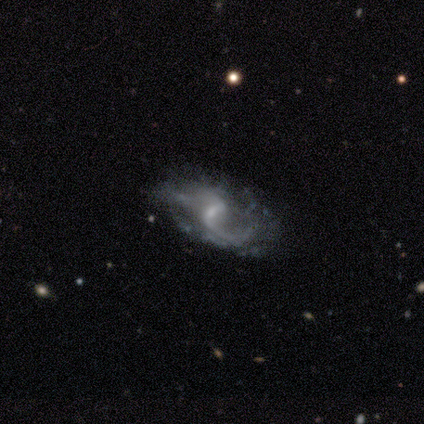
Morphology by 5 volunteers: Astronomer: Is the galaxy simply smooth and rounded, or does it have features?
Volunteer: featured or disk — 100%.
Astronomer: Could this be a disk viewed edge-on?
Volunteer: no — 100%.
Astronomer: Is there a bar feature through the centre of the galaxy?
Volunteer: weak — 60% (runner-up: no, 40%).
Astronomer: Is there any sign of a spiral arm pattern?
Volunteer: yes — 80%.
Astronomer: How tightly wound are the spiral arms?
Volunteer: medium — 50%, tied with loose at 50%.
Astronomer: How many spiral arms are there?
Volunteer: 2 — 75%.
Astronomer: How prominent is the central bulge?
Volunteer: small — 80%.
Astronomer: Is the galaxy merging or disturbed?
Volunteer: none — 40%, tied with minor disturbance at 40%.